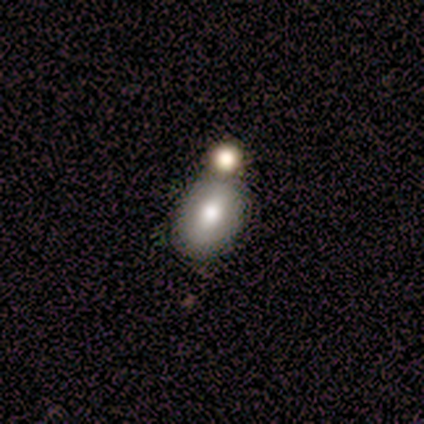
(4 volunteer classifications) Smooth or featured: smooth — 75% (featured or disk — 25%)
How rounded: in between — 100%
Merging: merger — 100%